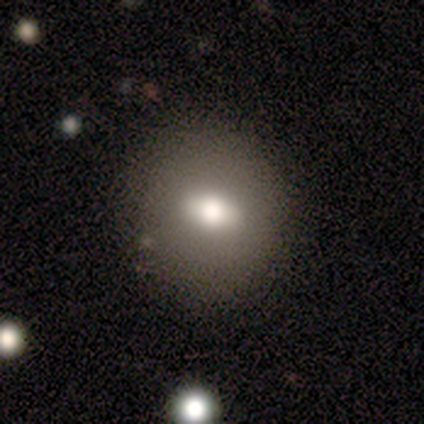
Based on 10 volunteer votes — This is clearly a smooth galaxy (80%). How rounded: likely in between (62%). Merging: clearly none (89%).